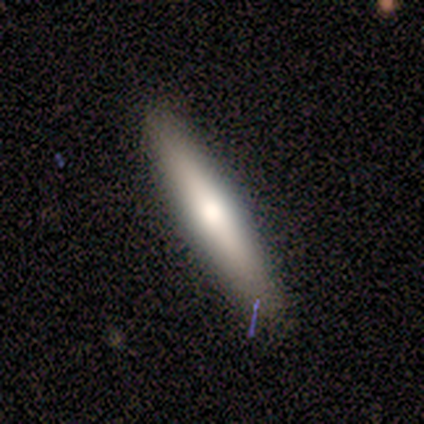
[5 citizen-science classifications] Overall: featured or disk (60%; smooth 40%). Edge-on disk: yes (67%; no 33%). Edge-on bulge: none (50%, tied with rounded). Merging: none (80%).